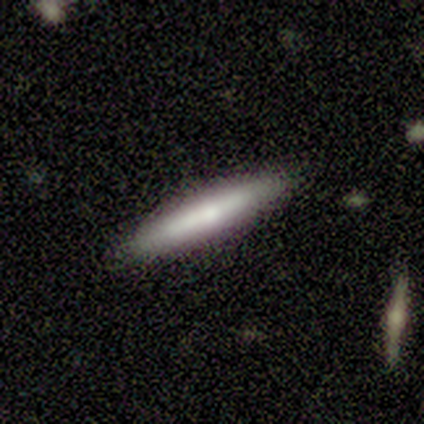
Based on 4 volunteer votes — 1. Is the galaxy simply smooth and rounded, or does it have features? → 50% smooth (tied), 50% featured or disk (tied), 0% star or artifact.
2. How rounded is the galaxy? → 100% cigar-shaped, 0% round, 0% in between.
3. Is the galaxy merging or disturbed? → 75% none, 25% minor disturbance, 0% major disturbance, 0% merger.